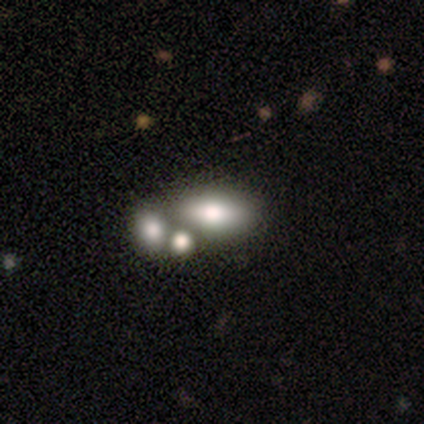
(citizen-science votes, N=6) Smooth or featured: smooth — 67% (featured or disk — 17%)
How rounded: in between — 75% (cigar-shaped — 25%)
Merging: none — 40% (tied with merger — 40%)